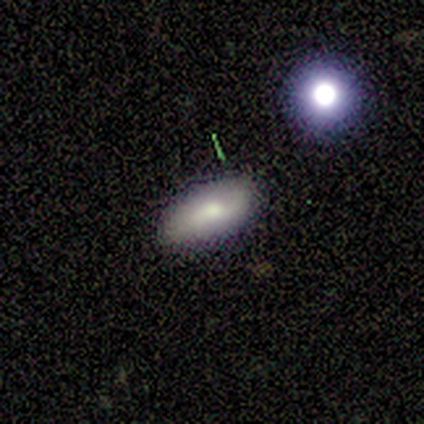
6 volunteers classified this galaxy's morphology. A smooth galaxy with no disk features (67%) that is in between round and cigar-shaped (100%). Merging: none (80%).